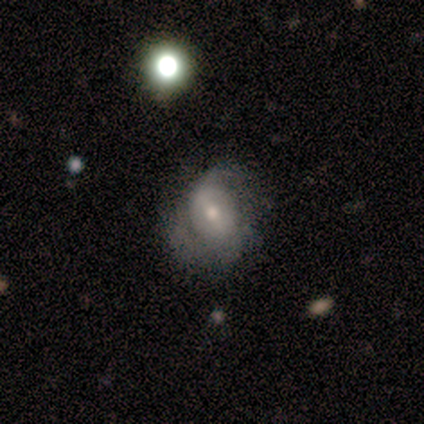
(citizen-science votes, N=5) Smooth or featured?
  - featured or disk: 60% *
  - smooth: 40%
  - star or artifact: 0%
Edge-on disk?
  - no: 100% *
  - yes: 0%
Bar?
  - strong: 33% * (tied)
  - weak: 33% * (tied)
  - no: 33% * (tied)
Spiral arms?
  - yes: 67% *
  - no: 33%
Spiral winding?
  - medium: 50% * (tied)
  - loose: 50% * (tied)
  - tight: 0%
Spiral arm count?
  - 2: 50% * (tied)
  - can't tell: 50% * (tied)
  - 1: 0%
  - 3: 0%
  - 4: 0%
  - more than 4: 0%
Bulge size?
  - small: 67% *
  - moderate: 33%
  - dominant: 0%
  - large: 0%
  - none: 0%
Merging?
  - minor disturbance: 60% *
  - none: 40%
  - major disturbance: 0%
  - merger: 0%